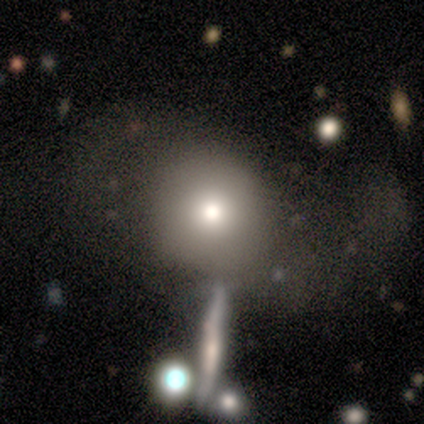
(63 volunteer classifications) smooth 63%, star or artifact 19%, featured or disk 17%. Down the decision tree: how rounded — round (88%); merging — none (37%).